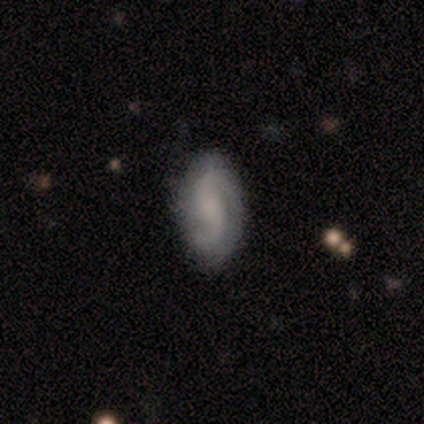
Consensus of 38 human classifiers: Smooth or featured: featured or disk — 74% (smooth — 21%)
Edge-on disk: no — 96% (yes — 4%)
Bar: no — 74% (weak — 19%)
Spiral arms: yes — 100%
Spiral winding: loose — 63% (medium — 30%)
Spiral arm count: 2 — 100%
Bulge size: none — 37% (small — 33%)
Merging: none — 69% (minor disturbance — 25%)